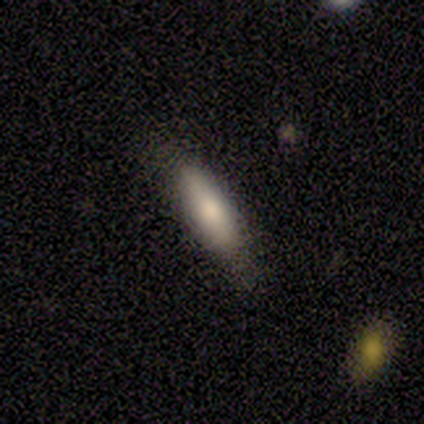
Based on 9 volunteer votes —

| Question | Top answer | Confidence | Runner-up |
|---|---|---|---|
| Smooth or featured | smooth | 78% | featured or disk (11%) |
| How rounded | cigar-shaped | 57% | in between (43%) |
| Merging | none | 100% | — |